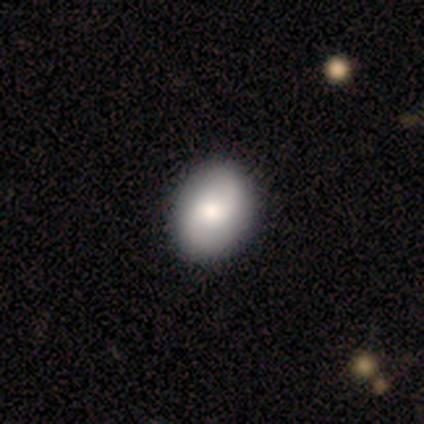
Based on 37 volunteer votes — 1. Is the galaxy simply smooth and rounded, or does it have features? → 54% smooth, 46% featured or disk, 0% star or artifact.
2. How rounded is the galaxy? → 75% in between, 25% round, 0% cigar-shaped.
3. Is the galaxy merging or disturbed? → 89% none, 8% minor disturbance, 3% major disturbance, 0% merger.